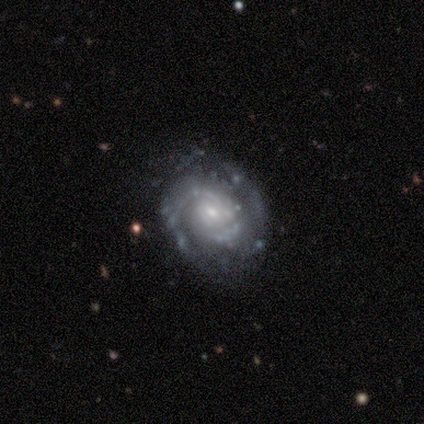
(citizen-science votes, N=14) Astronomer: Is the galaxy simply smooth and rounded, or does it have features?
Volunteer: featured or disk — 93%.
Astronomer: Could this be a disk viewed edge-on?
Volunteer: no — 100%.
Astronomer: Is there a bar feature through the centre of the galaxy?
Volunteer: no — 54% (runner-up: weak, 38%).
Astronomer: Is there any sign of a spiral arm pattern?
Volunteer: yes — 92%.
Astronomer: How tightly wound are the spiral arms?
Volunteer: tight — 50% (runner-up: medium, 33%).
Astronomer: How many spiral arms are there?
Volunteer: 2 — 75%.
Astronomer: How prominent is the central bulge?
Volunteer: small — 62%.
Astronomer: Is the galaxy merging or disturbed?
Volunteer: none — 57% (runner-up: minor disturbance, 36%).